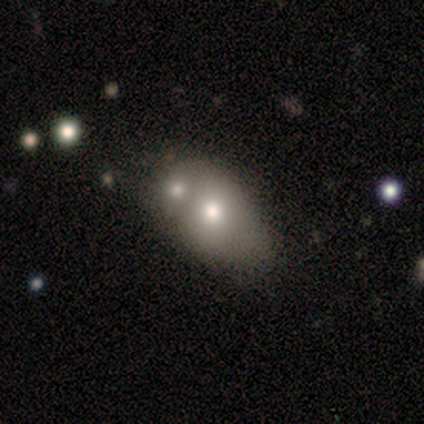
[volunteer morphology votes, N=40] Smooth or featured?
  - smooth: 70% *
  - featured or disk: 28%
  - star or artifact: 2%
How rounded?
  - in between: 79% *
  - round: 21%
  - cigar-shaped: 0%
Merging?
  - merger: 59% *
  - minor disturbance: 18%
  - none: 5%
  - major disturbance: 3%